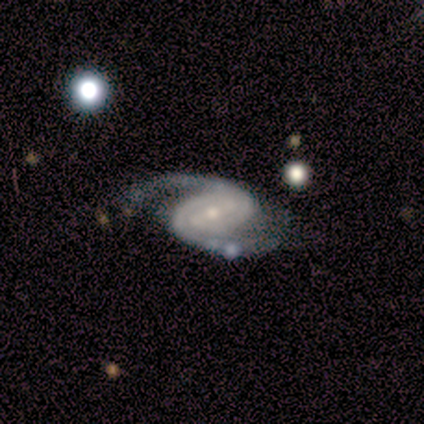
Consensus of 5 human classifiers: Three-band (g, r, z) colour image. It shows a featured or disk galaxy (100%) with no bar (50%), 2 (75%) tight (50%, tied with medium) spiral arms (100%) and a small central bulge (100%). Merging: none (80%).